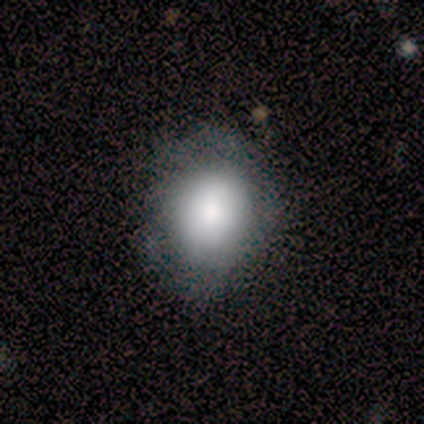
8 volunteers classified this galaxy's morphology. smooth_or_featured: smooth (p=0.75) [alt: featured or disk p=0.25]
how_rounded: round (p=0.50) [tied with: in between p=0.50]
merging: none (p=0.62) [alt: minor disturbance p=0.38]